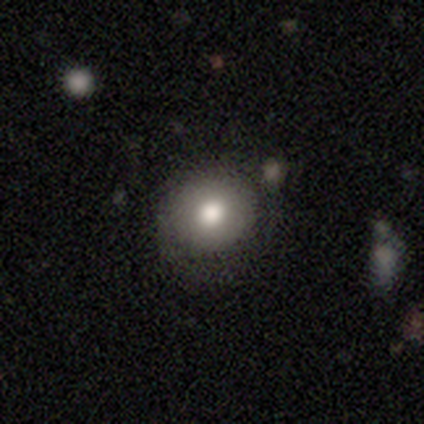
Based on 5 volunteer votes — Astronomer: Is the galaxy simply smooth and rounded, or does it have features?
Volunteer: smooth — 100%.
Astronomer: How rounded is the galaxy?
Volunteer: round — 100%.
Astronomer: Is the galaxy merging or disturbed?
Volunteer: none — 60% (runner-up: minor disturbance, 40%).